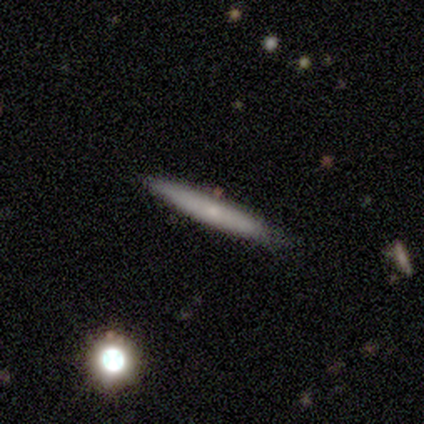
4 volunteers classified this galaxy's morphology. smooth 50% (tied), featured or disk 50% (tied), star or artifact 0%. Down the decision tree: how rounded — cigar-shaped (100%); merging — none (100%).